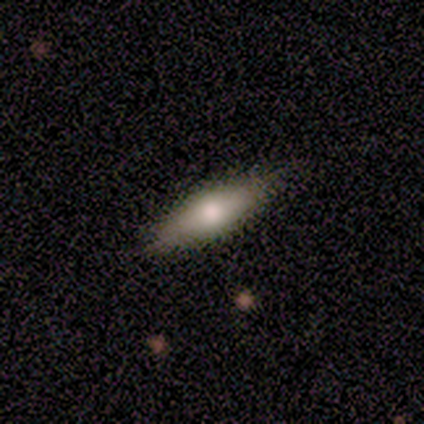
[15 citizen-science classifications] A smooth galaxy with no disk features (73%) that is cigar-shaped (55%). Merging: none (93%).